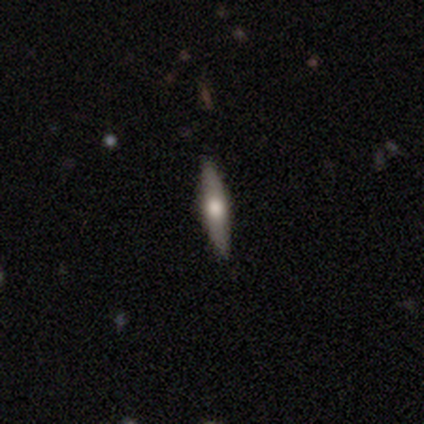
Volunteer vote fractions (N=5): A smooth galaxy with no disk features (60%) that is cigar-shaped (67%). Merging: none (80%).